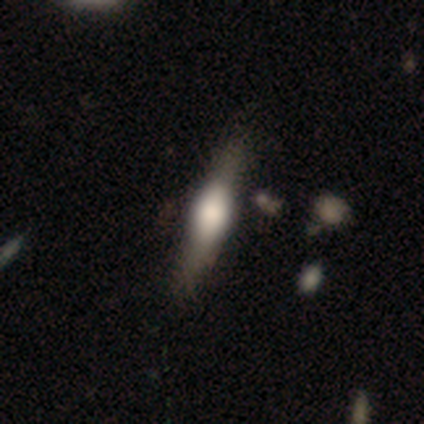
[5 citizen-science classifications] Q: Smooth or featured?
A: featured or disk (60%); runner-up: smooth (40%)
Q: Edge-on disk?
A: yes (100%)
Q: Edge-on bulge?
A: rounded (67%); runner-up: boxy (33%)
Q: Merging?
A: none (60%); runner-up: minor disturbance (40%)